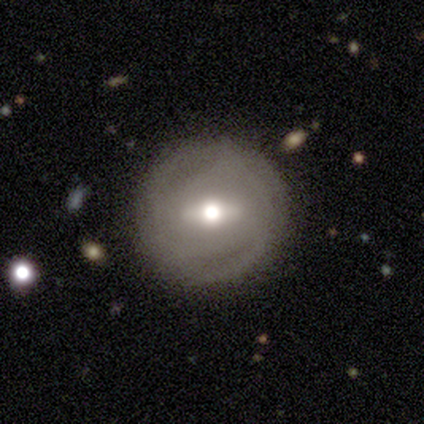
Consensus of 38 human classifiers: Smooth or featured: featured or disk — 63% (smooth — 29%)
Edge-on disk: no — 88% (yes — 12%)
Bar: strong — 48% (weak — 43%)
Spiral arms: yes — 57% (no — 43%)
Spiral winding: tight — 83% (medium — 8%)
Spiral arm count: can't tell — 50% (2 — 33%)
Bulge size: moderate — 76% (dominant — 10%)
Merging: none — 77% (minor disturbance — 17%)